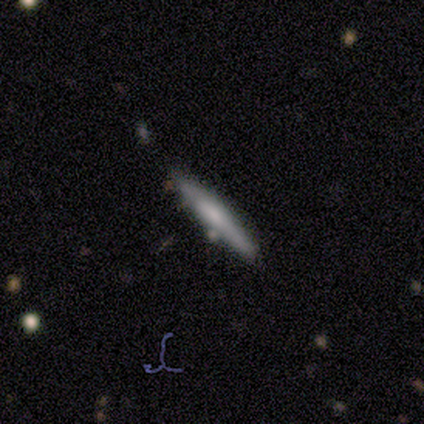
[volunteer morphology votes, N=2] smooth 50% (tied), featured or disk 50% (tied), star or artifact 0%. Down the decision tree: how rounded — cigar-shaped (100%); merging — none (50%, tied with merger).